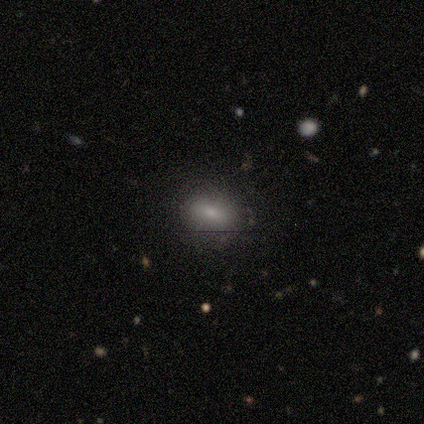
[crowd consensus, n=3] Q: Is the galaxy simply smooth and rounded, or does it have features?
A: smooth — 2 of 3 (67%).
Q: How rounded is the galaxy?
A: in between — 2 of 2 (100%).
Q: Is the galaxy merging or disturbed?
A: none — 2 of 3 (67%).